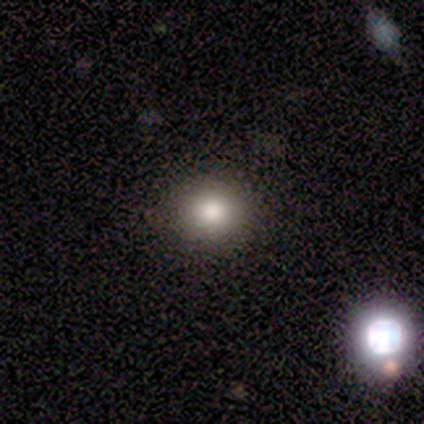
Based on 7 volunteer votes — Consensus on every question: smooth or featured — smooth (100%); how rounded — round (100%); merging — none (100%).